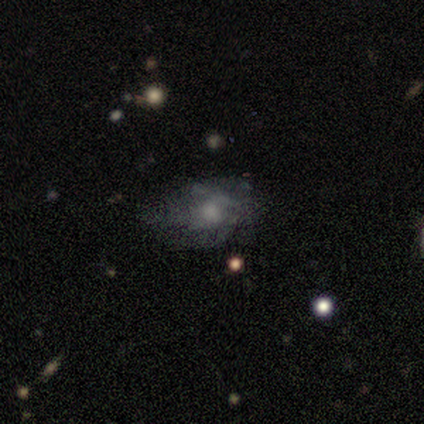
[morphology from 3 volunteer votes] This appears to be a featured or disk galaxy (67%) with a weak bar (50%, tied with no), no spiral arms (100%) and a small central bulge (100%). Merging: minor disturbance (67%).